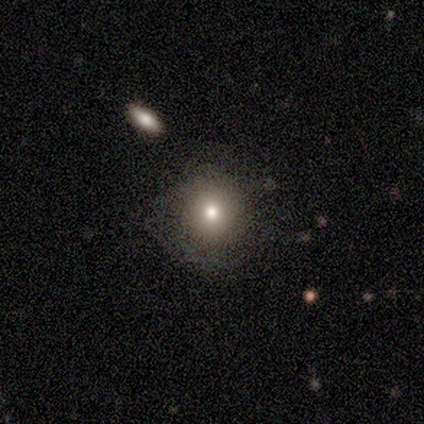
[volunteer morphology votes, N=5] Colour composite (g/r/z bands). It shows a smooth galaxy with no disk features (60%) that is round (100%). Merging: none (75%).